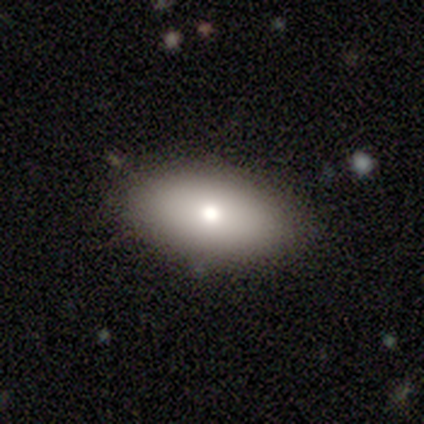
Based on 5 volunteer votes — Overall: smooth (60%; featured or disk 20%). How rounded: in between (100%). Merging: none (75%).